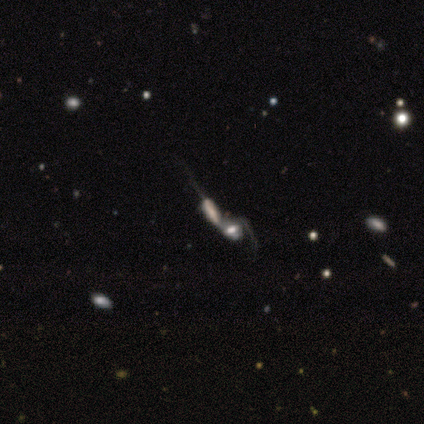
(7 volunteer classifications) This is likely a featured or disk galaxy (71%). It is clearly not viewed edge-on (80%). Bar: possibly no (50%). Spiral arm pattern: possibly yes (50%, tied with no). Spiral arm count: possibly 1 (50%, tied with can't tell). Spiral winding: possibly medium (50%, tied with loose). Central bulge: possibly moderate (50%). Merging: clearly merger (100%).